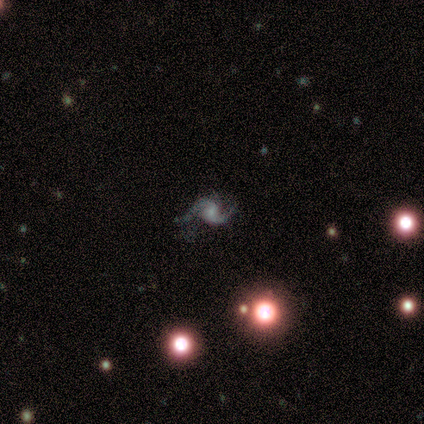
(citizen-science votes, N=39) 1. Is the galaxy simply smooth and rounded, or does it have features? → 97% featured or disk, 3% star or artifact, 0% smooth.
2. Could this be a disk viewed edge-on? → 97% no, 3% yes.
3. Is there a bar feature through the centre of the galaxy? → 51% weak, 43% no, 5% strong.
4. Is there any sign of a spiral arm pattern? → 97% yes, 3% no.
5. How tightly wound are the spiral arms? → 47% medium, 42% loose, 11% tight.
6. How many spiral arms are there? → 97% 2, 3% 1, 0% 3, 0% 4, 0% more than 4, 0% can't tell.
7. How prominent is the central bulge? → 54% small, 24% moderate, 14% none, 5% dominant, 3% large.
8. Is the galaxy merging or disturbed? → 63% none, 21% minor disturbance, 13% major disturbance, 3% merger.